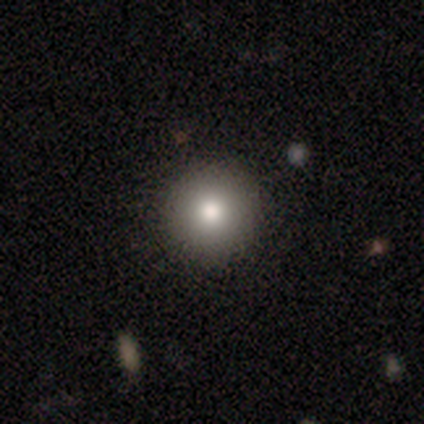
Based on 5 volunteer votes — Morphology: type=smooth (100%); roundness=round (100%); merging=none (100%).